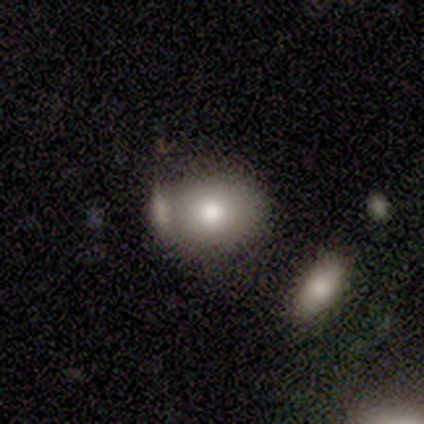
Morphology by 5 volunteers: Smooth or featured?
  - smooth: 80% *
  - star or artifact: 20%
  - featured or disk: 0%
How rounded?
  - round: 50% * (tied)
  - in between: 50% * (tied)
  - cigar-shaped: 0%
Merging?
  - none: 50% *
  - minor disturbance: 25%
  - merger: 25%
  - major disturbance: 0%